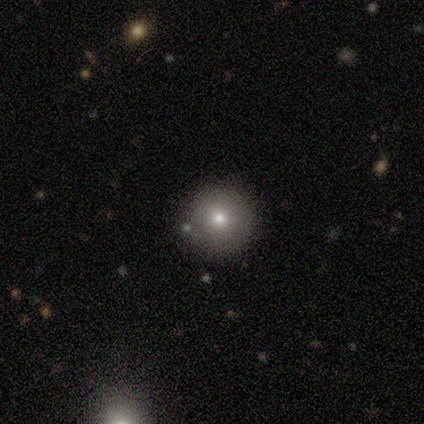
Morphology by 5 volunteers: A smooth galaxy with no disk features (80%) that is round (100%). Merging: none (75%).